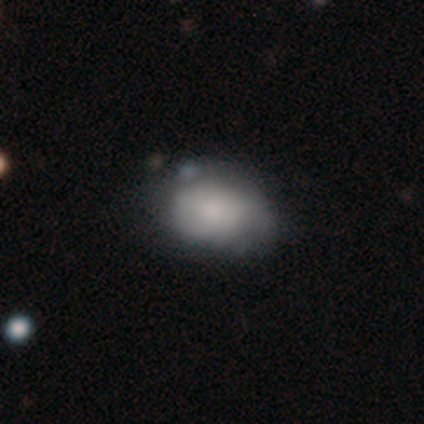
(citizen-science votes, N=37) This is clearly a smooth galaxy (84%). How rounded: likely in between (74%). Merging: likely none (64%).